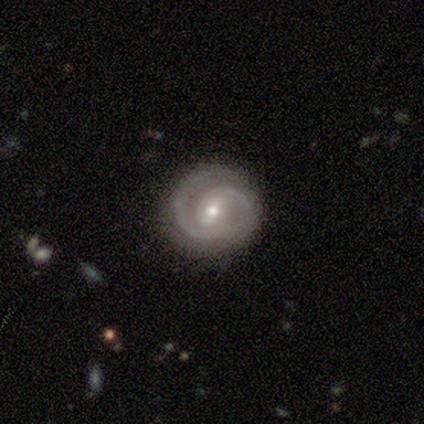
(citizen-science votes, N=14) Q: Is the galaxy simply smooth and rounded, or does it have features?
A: featured or disk — 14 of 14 (100%).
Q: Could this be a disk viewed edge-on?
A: no — 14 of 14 (100%).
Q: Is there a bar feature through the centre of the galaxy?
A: weak — 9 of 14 (64%).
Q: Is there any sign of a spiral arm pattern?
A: yes — 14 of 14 (100%).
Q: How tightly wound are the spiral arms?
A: tight — 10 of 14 (71%).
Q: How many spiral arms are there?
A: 2 — 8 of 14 (57%).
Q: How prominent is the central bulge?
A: small — 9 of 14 (64%).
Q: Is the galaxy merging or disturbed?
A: none — 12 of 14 (86%).